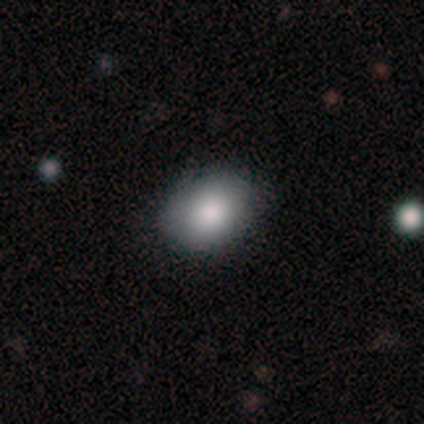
Morphology: type=smooth (100%); roundness=in between (80%); merging=none (80%).